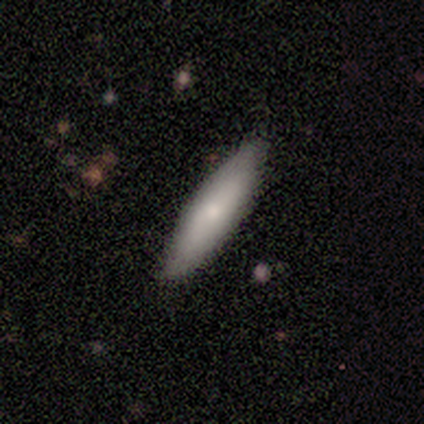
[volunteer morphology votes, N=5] Volunteers were most divided on "merging": none: 80%, minor disturbance: 20%, major disturbance: 0%, merger: 0%. More confident: smooth or featured — smooth (100%); how rounded — cigar-shaped (100%).